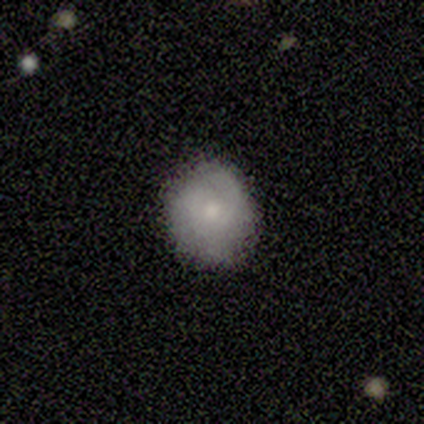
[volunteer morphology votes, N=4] Smooth or featured?
  - smooth: 50% * (tied)
  - featured or disk: 50% * (tied)
  - star or artifact: 0%
How rounded?
  - round: 100% *
  - in between: 0%
  - cigar-shaped: 0%
Merging?
  - none: 100% *
  - minor disturbance: 0%
  - major disturbance: 0%
  - merger: 0%